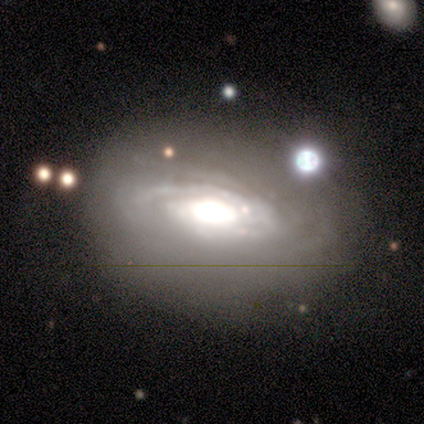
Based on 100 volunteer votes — smooth_or_featured: featured or disk (p=0.81) [alt: smooth p=0.14]
disk_edge_on: no (p=0.95) [alt: yes p=0.05]
bar: no (p=0.66) [alt: weak p=0.22]
has_spiral_arms: yes (p=0.92) [alt: no p=0.08]
spiral_winding: tight (p=0.83) [alt: medium p=0.17]
spiral_arm_count: can't tell (p=0.45) [alt: 3 p=0.27]
bulge_size: large (p=0.68) [alt: dominant p=0.21]
merging: none (p=0.67) [alt: minor disturbance p=0.18]